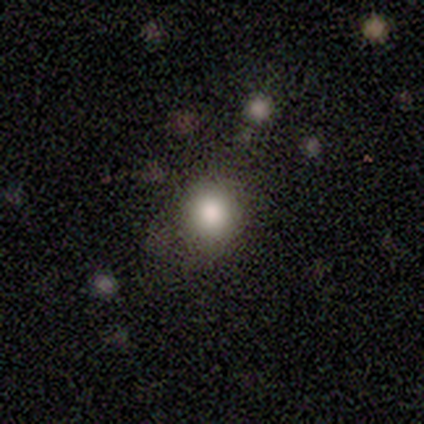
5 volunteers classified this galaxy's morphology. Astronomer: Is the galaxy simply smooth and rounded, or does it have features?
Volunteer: smooth — 60%.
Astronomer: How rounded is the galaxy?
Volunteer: round — 100%.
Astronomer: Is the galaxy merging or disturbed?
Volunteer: none — 50%, tied with minor disturbance at 50%.